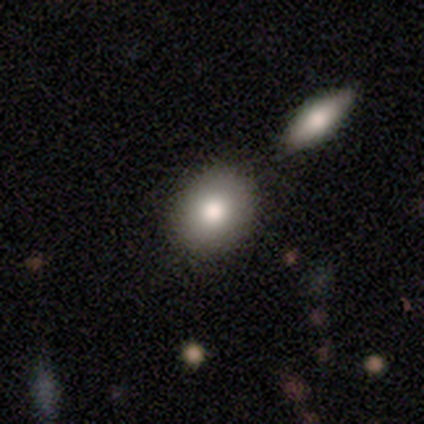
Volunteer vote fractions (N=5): Smooth or featured? 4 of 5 (80%) said smooth. How rounded? 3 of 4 (75%) said in between. Merging? 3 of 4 (75%) said none.